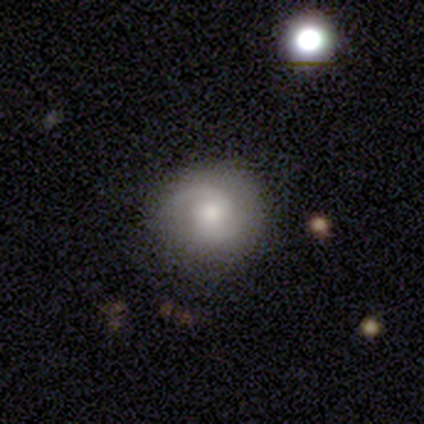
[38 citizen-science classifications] Overall: featured or disk (55%; smooth 39%). Edge-on disk: no (95%). Bar: no (55%; weak 30%). Spiral arms: yes (95%). Spiral arm count: 2 (95%). Spiral winding: medium (42%; tight 32%). Bulge size: moderate (50%; small 25%). Merging: none (86%).